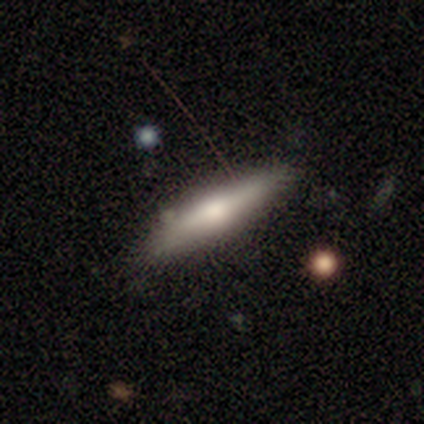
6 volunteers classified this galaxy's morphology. This is likely a smooth galaxy (67%). How rounded: clearly cigar-shaped (100%). Merging: clearly none (83%).